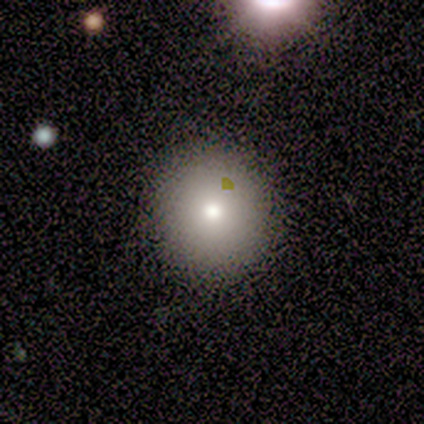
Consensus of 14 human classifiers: Q: Smooth or featured?
A: smooth (64%); runner-up: featured or disk (21%)
Q: How rounded?
A: round (100%)
Q: Merging?
A: none (92%); runner-up: minor disturbance (8%)